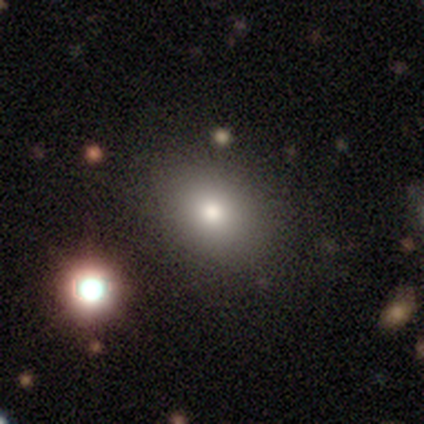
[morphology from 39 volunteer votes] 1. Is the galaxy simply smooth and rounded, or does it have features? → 74% smooth, 15% featured or disk, 10% star or artifact.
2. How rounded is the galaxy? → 76% in between, 24% round, 0% cigar-shaped.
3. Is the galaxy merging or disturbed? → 49% none, 14% minor disturbance, 11% merger, 3% major disturbance.